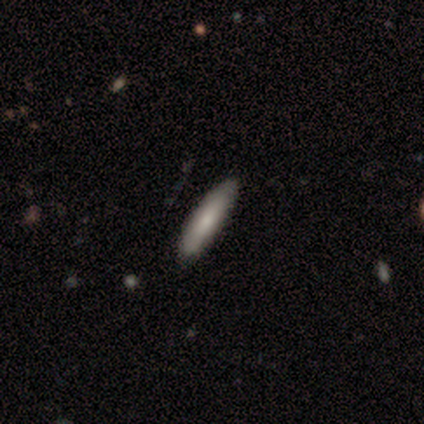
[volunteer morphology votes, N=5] A featured or disk galaxy (100%) viewed edge-on (60%) with no central bulge (67%). Merging: none (100%).